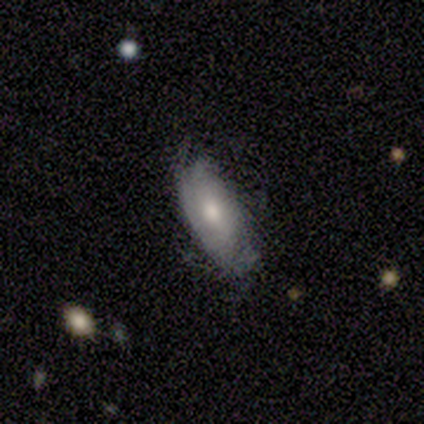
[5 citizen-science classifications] This appears to be a smooth galaxy with no disk features (60%) that is in between round and cigar-shaped (100%). Merging: none (80%).